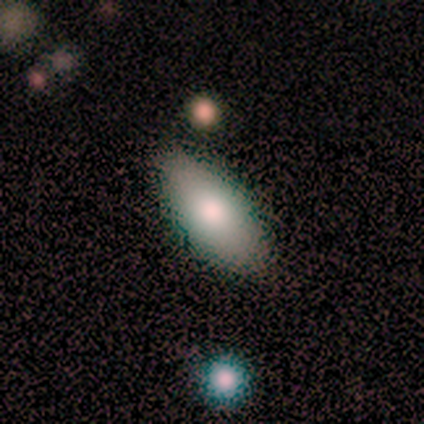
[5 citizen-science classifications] Smooth or featured? 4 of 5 (80%) said smooth. How rounded? 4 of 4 (100%) said in between. Merging? 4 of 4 (100%) said none.